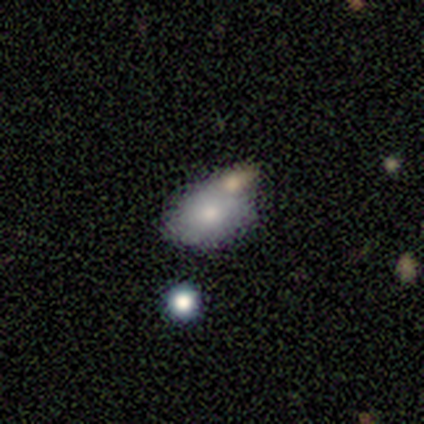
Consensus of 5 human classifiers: Smooth or featured? smooth (60%)
How rounded? in between (100%)
Merging? minor disturbance (40%, tied with merger)